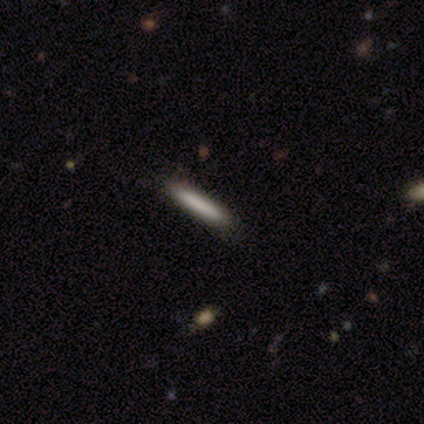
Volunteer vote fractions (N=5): A smooth galaxy with no disk features (80%) that is cigar-shaped (75%). Merging: none (100%).